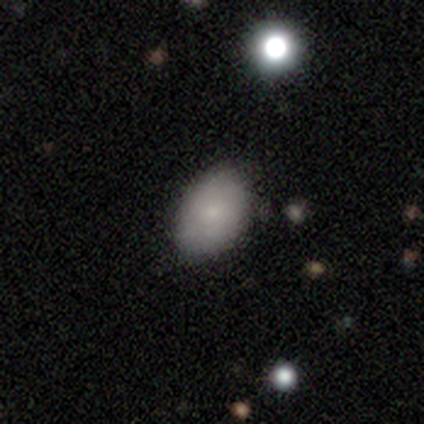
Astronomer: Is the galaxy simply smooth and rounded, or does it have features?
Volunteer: smooth — 80%.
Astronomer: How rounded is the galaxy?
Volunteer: in between — 100%.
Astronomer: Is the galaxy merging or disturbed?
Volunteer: none — 80%.